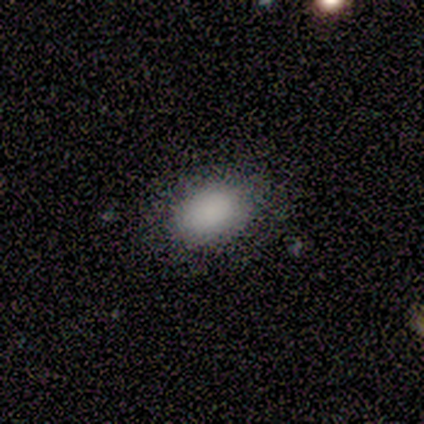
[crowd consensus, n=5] This is clearly a smooth galaxy (100%). How rounded: likely in between (60%). Merging: clearly none (80%).